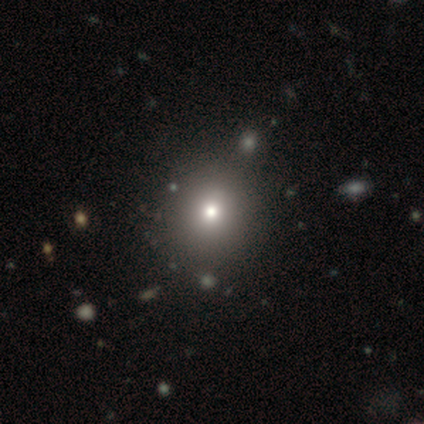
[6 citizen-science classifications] smooth_or_featured: smooth (p=0.67) [alt: featured or disk p=0.17]
how_rounded: round (p=0.75) [alt: in between p=0.25]
merging: none (p=0.80) [alt: merger p=0.20]